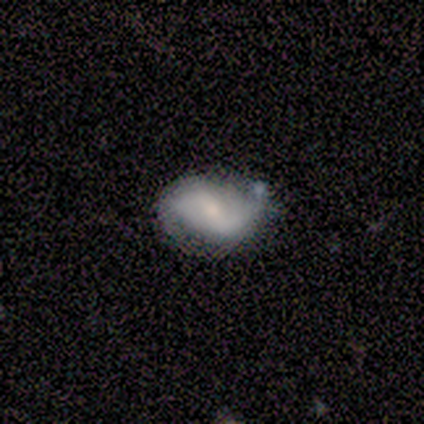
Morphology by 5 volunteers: Smooth or featured? smooth (60%)
How rounded? in between (100%)
Merging? none (75%)